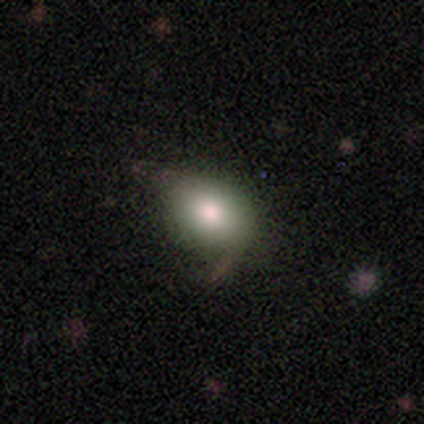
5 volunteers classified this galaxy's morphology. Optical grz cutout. It shows a smooth galaxy with no disk features (60%) that is round (67%). Merging: none (100%).